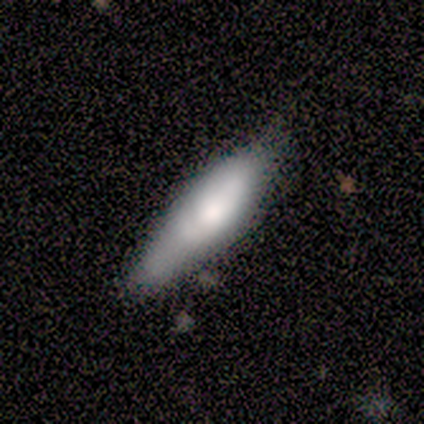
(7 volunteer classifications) Smooth or featured?
  - smooth: 71% *
  - featured or disk: 14%
  - star or artifact: 14%
How rounded?
  - in between: 60% *
  - cigar-shaped: 40%
  - round: 0%
Merging?
  - none: 83% *
  - minor disturbance: 17%
  - major disturbance: 0%
  - merger: 0%